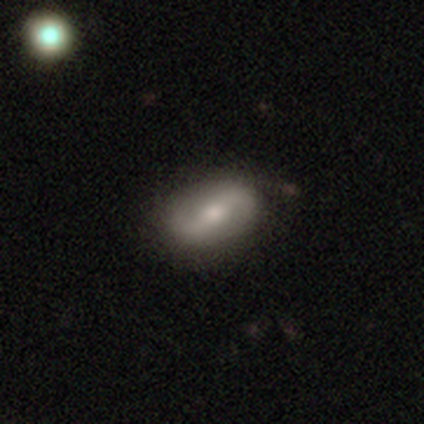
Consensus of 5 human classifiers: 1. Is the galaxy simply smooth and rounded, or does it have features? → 60% featured or disk, 40% smooth, 0% star or artifact.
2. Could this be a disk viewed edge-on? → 100% no, 0% yes.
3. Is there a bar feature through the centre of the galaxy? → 67% strong, 33% weak, 0% no.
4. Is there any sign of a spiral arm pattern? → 67% yes, 33% no.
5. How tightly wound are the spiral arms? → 50% tight (tied), 50% medium (tied), 0% loose.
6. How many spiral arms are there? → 100% 2, 0% 1, 0% 3, 0% 4, 0% more than 4, 0% can't tell.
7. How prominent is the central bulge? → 67% moderate, 33% dominant, 0% large, 0% small, 0% none.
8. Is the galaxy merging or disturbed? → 60% minor disturbance, 40% none, 0% major disturbance, 0% merger.